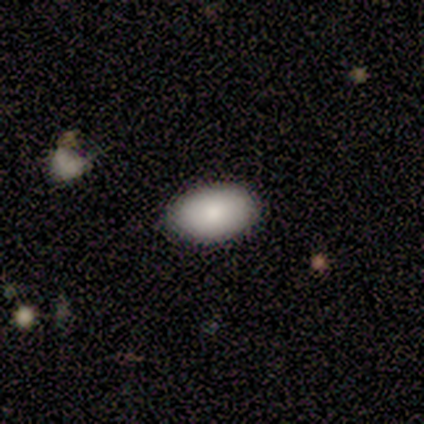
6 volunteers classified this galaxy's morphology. A smooth galaxy with no disk features (100%) that is in between round and cigar-shaped (100%).

Vote fractions:
- Smooth or featured? smooth: 100% / featured or disk: 0% / star or artifact: 0%
- How rounded? in between: 100% / round: 0% / cigar-shaped: 0%
- Merging? none: 100% / minor disturbance: 0% / major disturbance: 0% / merger: 0%